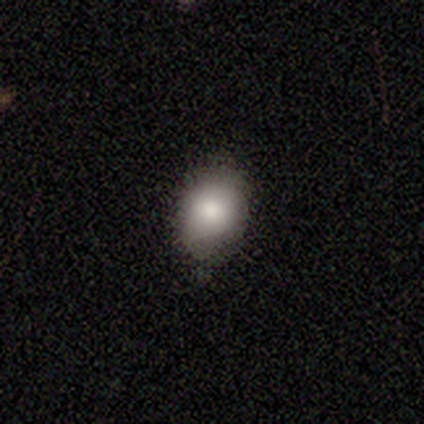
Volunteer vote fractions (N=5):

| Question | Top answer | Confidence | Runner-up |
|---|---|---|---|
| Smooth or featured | smooth | 80% | star or artifact (20%) |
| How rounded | round | 50% | tied: in between (50%) |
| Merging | none | 75% | minor disturbance (25%) |